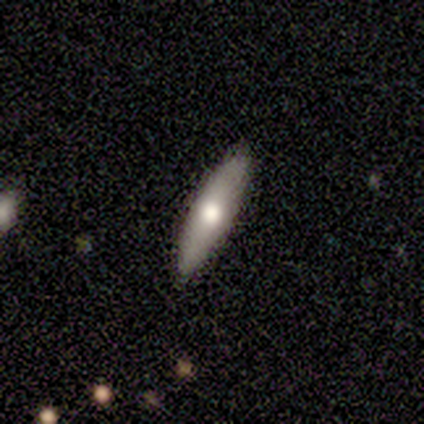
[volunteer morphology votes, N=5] type=smooth (80%); roundness=cigar-shaped (100%); merging=none (60%).